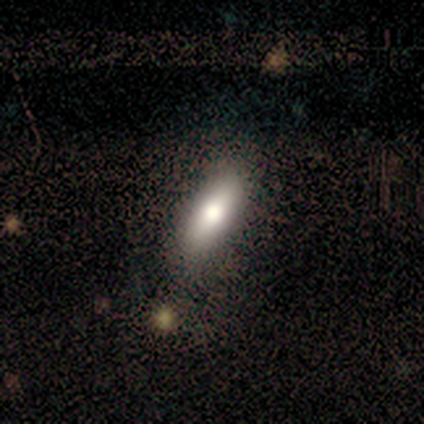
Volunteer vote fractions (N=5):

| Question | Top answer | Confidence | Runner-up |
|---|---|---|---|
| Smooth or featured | smooth | 100% | — |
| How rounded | in between | 60% | cigar-shaped (40%) |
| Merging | none | 80% | minor disturbance (20%) |